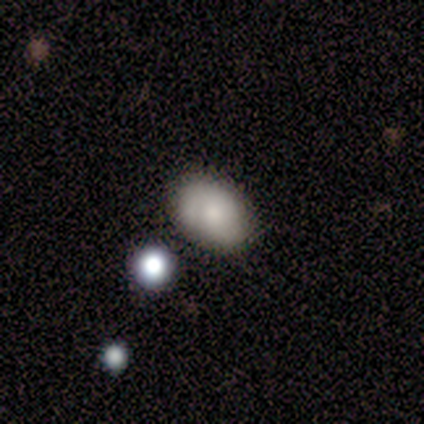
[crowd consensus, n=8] Morphology: type=smooth (88%); roundness=in between (100%); merging=none (88%).